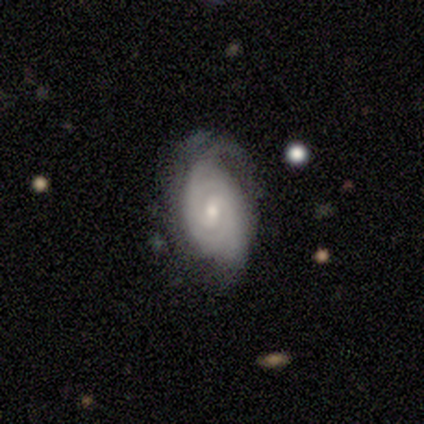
This is clearly a featured or disk galaxy (100%). It is clearly not viewed edge-on (100%). Bar: likely weak (60%). Spiral arm pattern: clearly yes (100%). Spiral arm count: likely 2 (60%). Spiral winding: clearly tight (80%). Central bulge: likely moderate (60%). Merging: marginally minor disturbance (40%, tied with major disturbance).